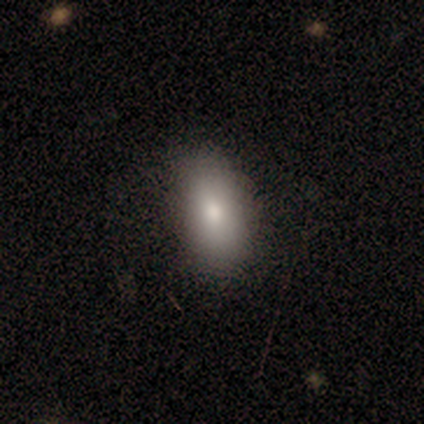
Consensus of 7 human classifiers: This appears to be a smooth galaxy with no disk features (86%) that is in between round and cigar-shaped (100%). Merging: none (57%).